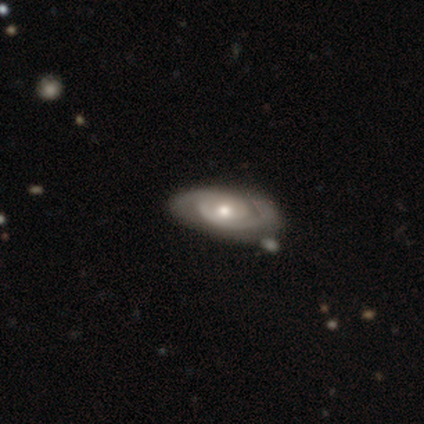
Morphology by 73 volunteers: A featured or disk galaxy (85%) with no bar (82%), 2 (79%) tight (70%) spiral arms (95%) and a moderate central bulge (71%). Merging: none (71%).